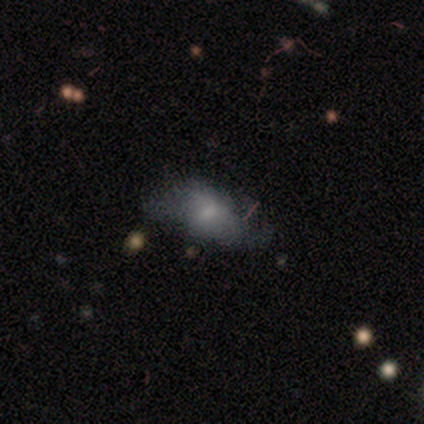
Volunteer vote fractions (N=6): A featured or disk galaxy (50%) with no bar (100%), no spiral arms (67%) and a moderate central bulge (33%, tied with small and none).

Vote fractions:
- Smooth or featured? featured or disk: 50% / smooth: 33% / star or artifact: 17%
- Edge-on disk? no: 100% / yes: 0%
- Bar? no: 100% / strong: 0% / weak: 0%
- Spiral arms? no: 67% / yes: 33%
- Bulge size? moderate: 33% (tied) / small: 33% (tied) / none: 33% (tied) / dominant: 0% / large: 0%
- Merging? none: 60% / minor disturbance: 20% / major disturbance: 20% / merger: 0%